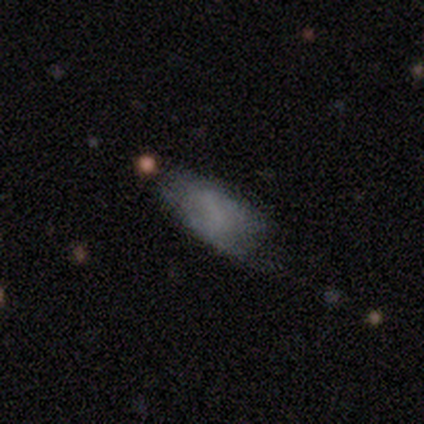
Overall: smooth (40%, tied with featured or disk). How rounded: in between (100%). Merging: minor disturbance (100%).